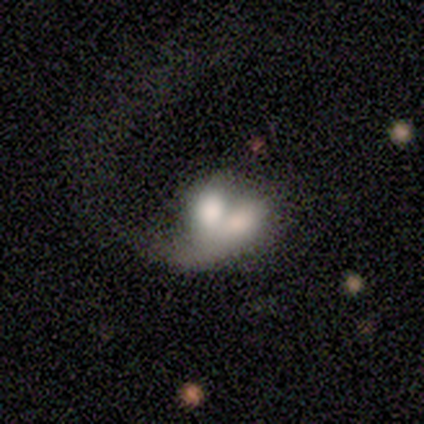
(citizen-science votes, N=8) A smooth galaxy with no disk features (75%) that is in between round and cigar-shaped (67%).

Vote fractions:
- Smooth or featured? smooth: 75% / featured or disk: 25% / star or artifact: 0%
- How rounded? in between: 67% / round: 17% / cigar-shaped: 17%
- Merging? merger: 62% / minor disturbance: 25% / major disturbance: 12% / none: 0%